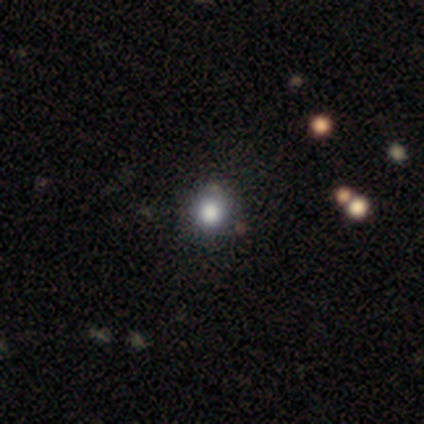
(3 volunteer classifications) Smooth or featured: smooth — 67% (star or artifact — 33%)
How rounded: round — 100%
Merging: minor disturbance — 100%